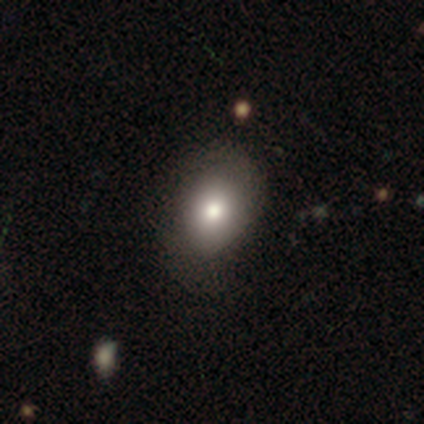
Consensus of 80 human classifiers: Volunteers were most divided on "merging": none: 36%, minor disturbance: 12%, merger: 3%, major disturbance: 1%. More confident: smooth or featured — smooth (82%); how rounded — in between (73%).